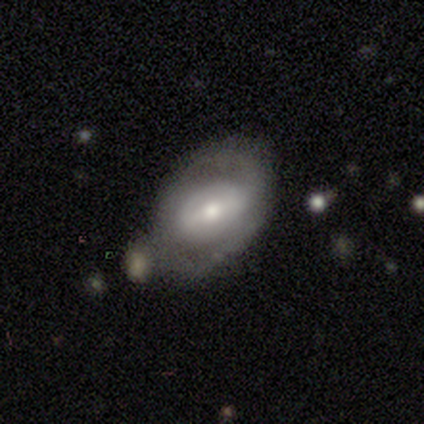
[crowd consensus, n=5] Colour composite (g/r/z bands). It shows a featured or disk galaxy (60%) with a strong bar (33%, tied with weak and no), 2 (50%, tied with can't tell) tight (50%, tied with medium) spiral arms (67%) and a small central bulge (67%). Merging: none (100%).